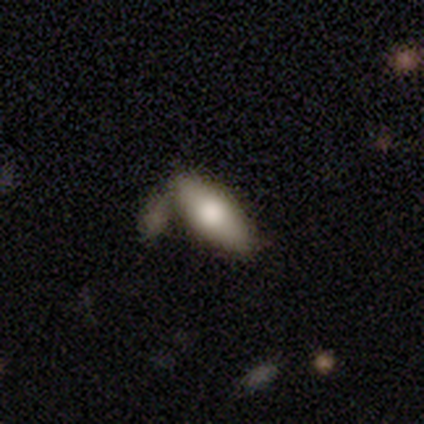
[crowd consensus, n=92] Morphology: type=smooth (65%); roundness=in between (73%); merging=none (53%).